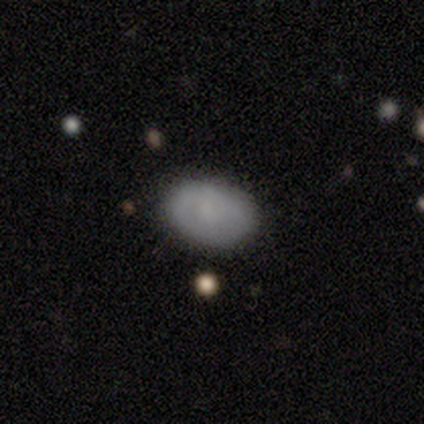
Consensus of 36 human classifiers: Overall: smooth (75%). How rounded: in between (85%). Merging: none (71%).